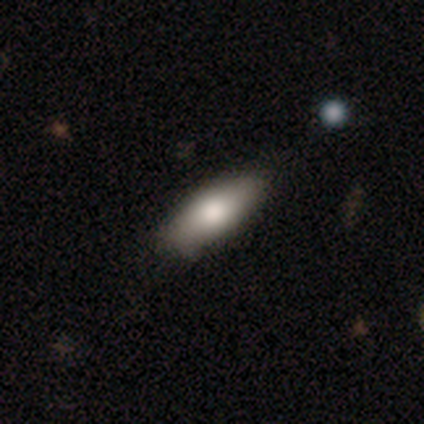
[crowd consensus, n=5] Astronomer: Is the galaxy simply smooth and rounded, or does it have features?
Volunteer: smooth — 60% (runner-up: featured or disk, 40%).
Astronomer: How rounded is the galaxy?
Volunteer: in between — 100%.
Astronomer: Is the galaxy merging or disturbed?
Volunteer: minor disturbance — 60% (runner-up: none, 40%).